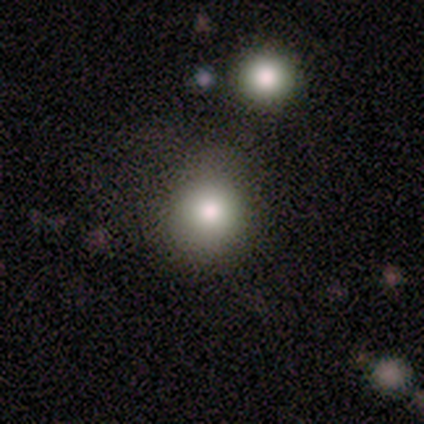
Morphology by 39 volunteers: smooth-or-featured: smooth: 72% | star or artifact: 23% | featured or disk: 5%
  how-rounded: round: 89% | in between: 11% | cigar-shaped: 0%
  merging: none: 80% | minor disturbance: 10% | major disturbance: 7% | merger: 3%